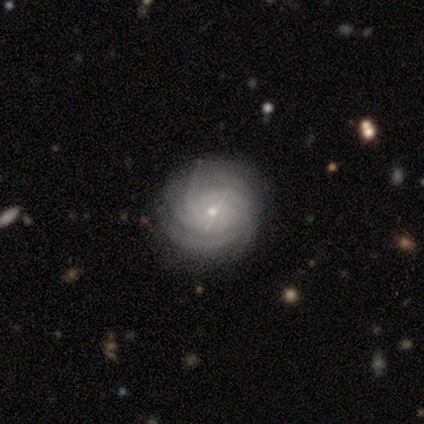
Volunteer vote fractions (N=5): A featured or disk galaxy (80%) with no bar (75%), more than 4 (50%, tied with can't tell) tight (50%) spiral arms (100%) and a small central bulge (75%). Merging: none (100%).